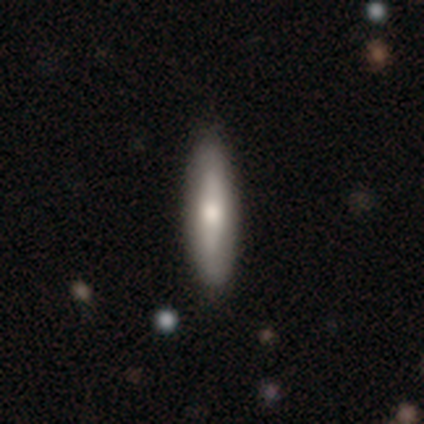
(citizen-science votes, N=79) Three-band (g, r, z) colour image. It shows a smooth galaxy with no disk features (68%) that is cigar-shaped (69%). Merging: none (44%).